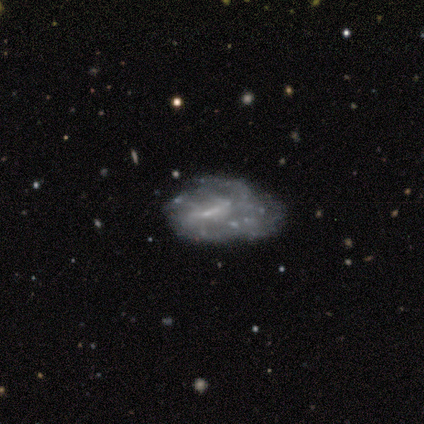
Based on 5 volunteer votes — A featured or disk galaxy (60%) with a weak bar (100%), medium (50%, tied with loose) spiral arms (67%) and no central bulge (67%). Merging: minor disturbance (60%).